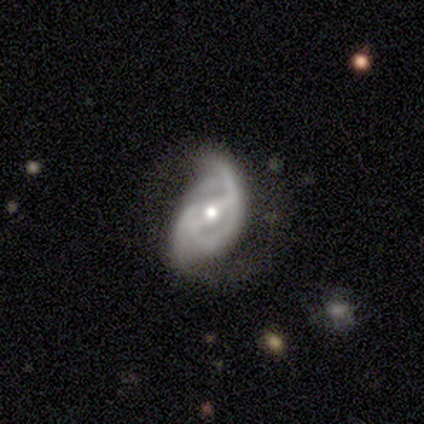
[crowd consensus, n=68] Smooth or featured? featured or disk (82%)
Edge-on disk? no (100%)
Bar? strong (46%)
Spiral arms? yes (88%)
Spiral winding? medium (39%, tied with loose)
Spiral arm count? 2 (76%)
Bulge size? moderate (75%)
Merging? major disturbance (38%)